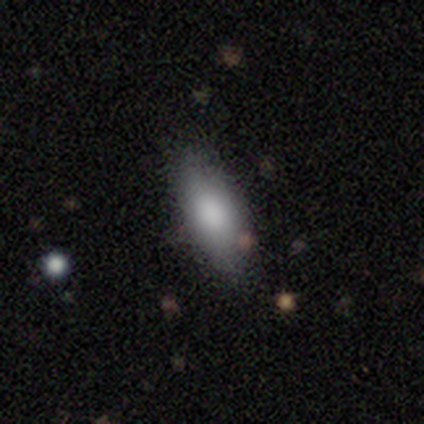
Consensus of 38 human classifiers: Overall: smooth (68%). How rounded: in between (77%). Merging: none (88%).